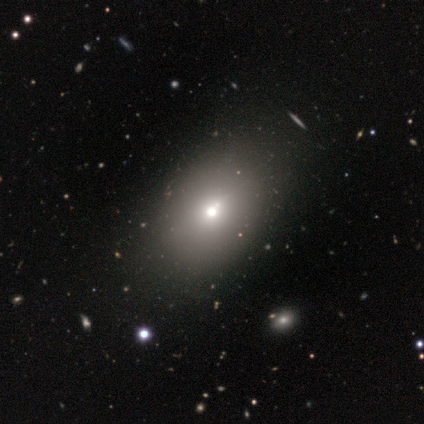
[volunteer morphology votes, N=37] smooth_or_featured: smooth (p=0.70) [alt: featured or disk p=0.16]
how_rounded: in between (p=0.88) [alt: round p=0.12]
merging: none (p=0.47) [alt: major disturbance p=0.06]